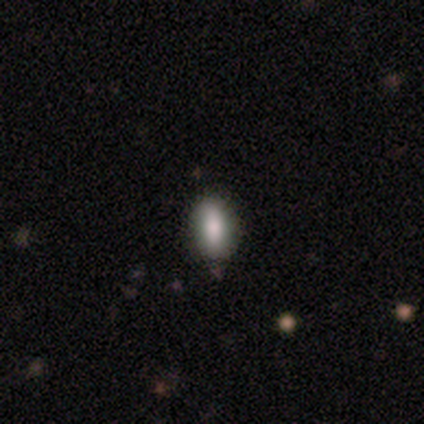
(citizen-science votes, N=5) Smooth or featured?
  - smooth: 100% *
  - featured or disk: 0%
  - star or artifact: 0%
How rounded?
  - in between: 100% *
  - round: 0%
  - cigar-shaped: 0%
Merging?
  - none: 80% *
  - minor disturbance: 20%
  - major disturbance: 0%
  - merger: 0%